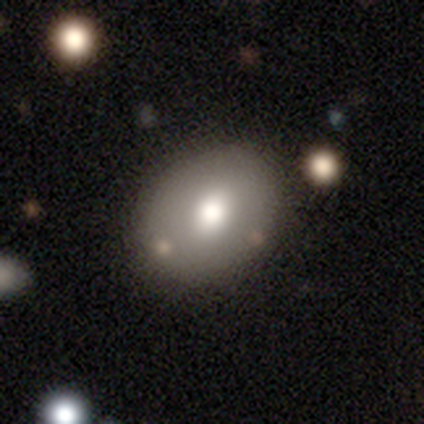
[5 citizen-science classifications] Smooth or featured: smooth — 40% (tied with featured or disk — 40%)
How rounded: in between — 100%
Merging: none — 75% (minor disturbance — 25%)